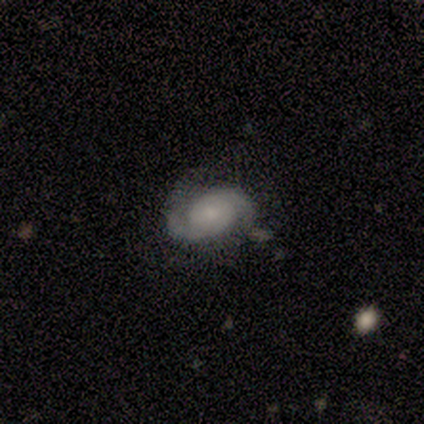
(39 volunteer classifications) Morphology: type=featured or disk (77%); edge-on=no (100%); bar=no (80%); spiral arms=yes (100%); winding=medium (50%); arm count=2 (93%); bulge=small (47%); merging=none (71%).